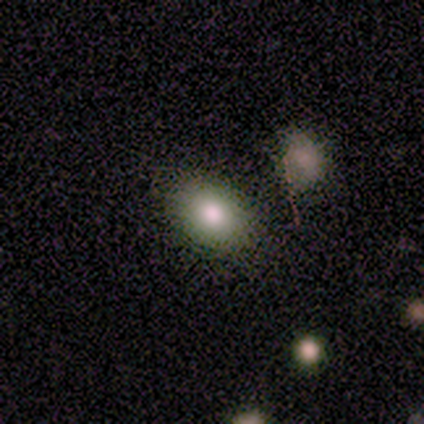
This is clearly a smooth galaxy (80%). How rounded: clearly in between (100%). Merging: clearly none (100%).